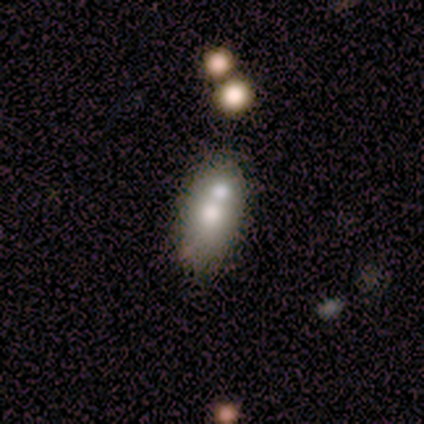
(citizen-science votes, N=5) Smooth or featured? smooth (60%)
How rounded? in between (100%)
Merging? none (50%, tied with merger)